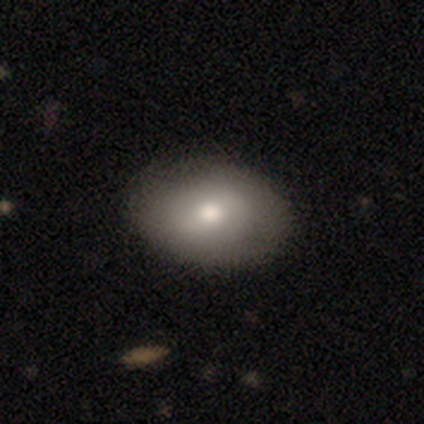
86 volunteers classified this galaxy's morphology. Smooth or featured: smooth — 66% (featured or disk — 30%)
How rounded: in between — 79% (round — 21%)
Merging: none — 83% (minor disturbance — 14%)